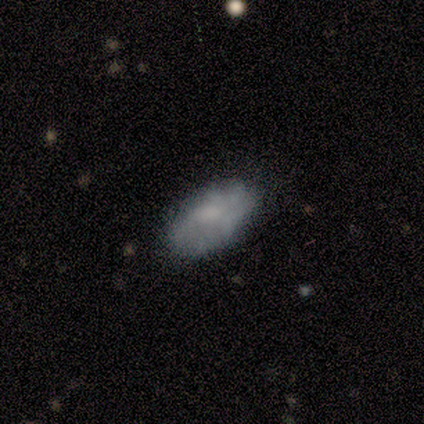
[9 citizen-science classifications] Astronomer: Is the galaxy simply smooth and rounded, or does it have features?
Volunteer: smooth — 67%.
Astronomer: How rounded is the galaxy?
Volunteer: in between — 100%.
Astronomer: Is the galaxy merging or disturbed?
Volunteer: none — 100%.